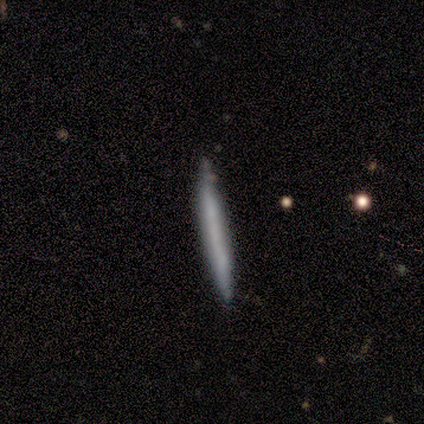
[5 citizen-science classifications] Q: Smooth or featured?
A: smooth (80%); runner-up: featured or disk (20%)
Q: How rounded?
A: cigar-shaped (100%)
Q: Merging?
A: none (80%); runner-up: minor disturbance (20%)